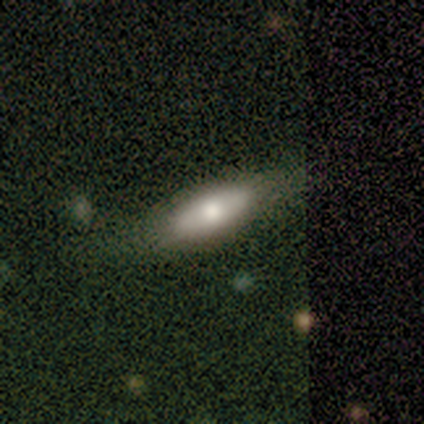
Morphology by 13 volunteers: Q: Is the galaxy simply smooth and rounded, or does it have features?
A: smooth — 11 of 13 (85%).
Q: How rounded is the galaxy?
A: in between — 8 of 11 (73%).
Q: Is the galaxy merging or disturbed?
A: none — 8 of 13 (62%).